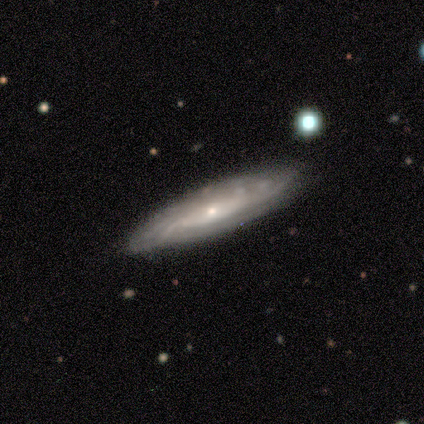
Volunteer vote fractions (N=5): Q: Smooth or featured?
A: featured or disk (100%)
Q: Edge-on disk?
A: no (100%)
Q: Bar?
A: weak (40%); tied with: no (40%)
Q: Spiral arms?
A: yes (80%); runner-up: no (20%)
Q: Spiral winding?
A: tight (75%); runner-up: medium (25%)
Q: Spiral arm count?
A: 3 (25%); tied with: 4 (25%); more than 4 (25%); can't tell (25%)
Q: Bulge size?
A: moderate (60%); runner-up: small (40%)
Q: Merging?
A: none (80%); runner-up: major disturbance (20%)